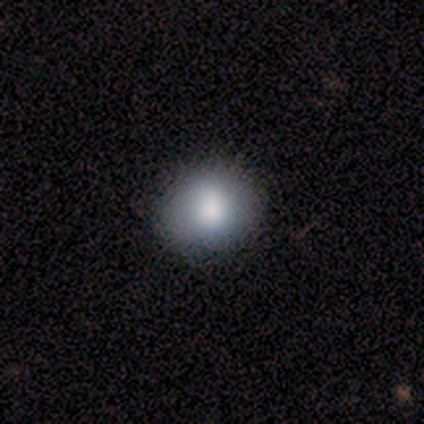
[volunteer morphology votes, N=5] Q: Smooth or featured?
A: smooth (80%); runner-up: featured or disk (20%)
Q: How rounded?
A: round (100%)
Q: Merging?
A: none (100%)